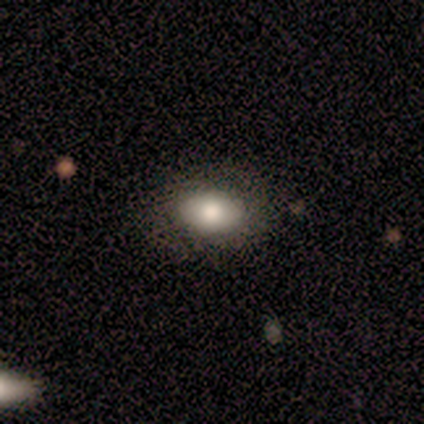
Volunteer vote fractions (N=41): Smooth or featured? smooth (68%)
How rounded? in between (89%)
Merging? none (56%)